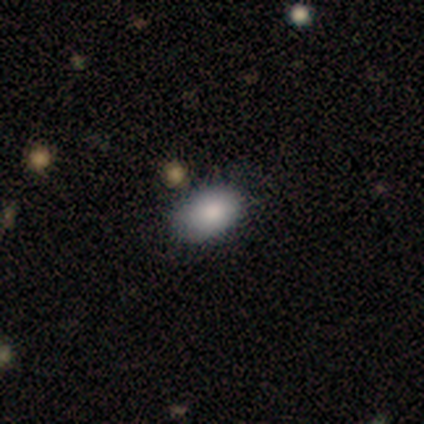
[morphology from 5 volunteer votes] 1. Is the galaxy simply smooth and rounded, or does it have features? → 80% smooth, 20% featured or disk, 0% star or artifact.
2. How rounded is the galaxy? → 100% in between, 0% round, 0% cigar-shaped.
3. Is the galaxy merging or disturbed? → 80% none, 20% minor disturbance, 0% major disturbance, 0% merger.